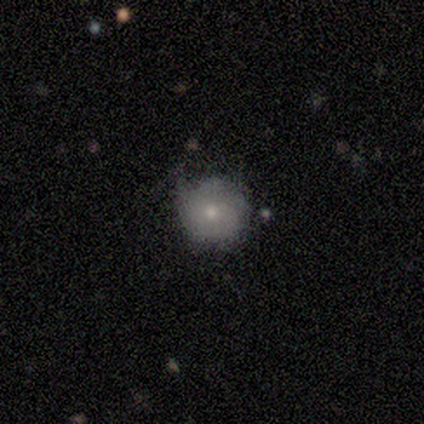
smooth-or-featured: smooth: 60% | featured or disk: 40% | star or artifact: 0%
  how-rounded: round: 100% | in between: 0% | cigar-shaped: 0%
  merging: none: 80% | minor disturbance: 20% | major disturbance: 0% | merger: 0%